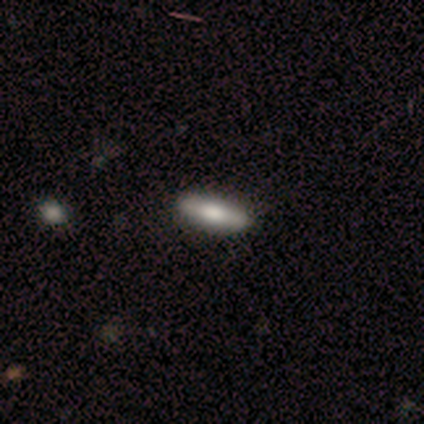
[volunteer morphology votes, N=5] Q: Smooth or featured?
A: smooth (80%); runner-up: featured or disk (20%)
Q: How rounded?
A: in between (50%); tied with: cigar-shaped (50%)
Q: Merging?
A: none (80%); runner-up: minor disturbance (20%)